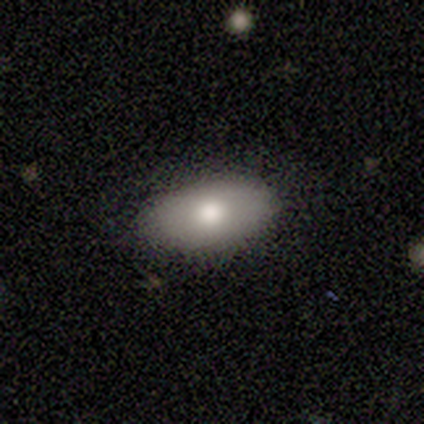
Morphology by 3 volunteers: Smooth or featured?
  - smooth: 33% * (tied)
  - featured or disk: 33% * (tied)
  - star or artifact: 33% * (tied)
How rounded?
  - in between: 100% *
  - round: 0%
  - cigar-shaped: 0%
Merging?
  - none: 100% *
  - minor disturbance: 0%
  - major disturbance: 0%
  - merger: 0%